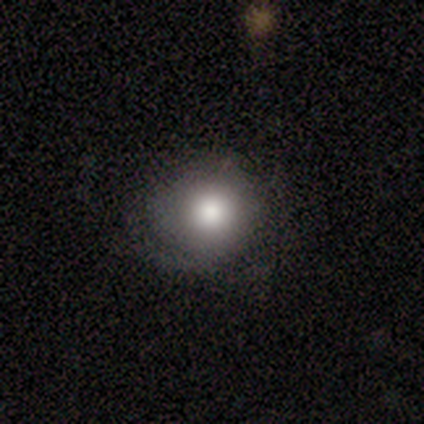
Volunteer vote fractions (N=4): Smooth or featured?
  - smooth: 75% *
  - featured or disk: 25%
  - star or artifact: 0%
How rounded?
  - round: 100% *
  - in between: 0%
  - cigar-shaped: 0%
Merging?
  - none: 75% *
  - major disturbance: 25%
  - minor disturbance: 0%
  - merger: 0%